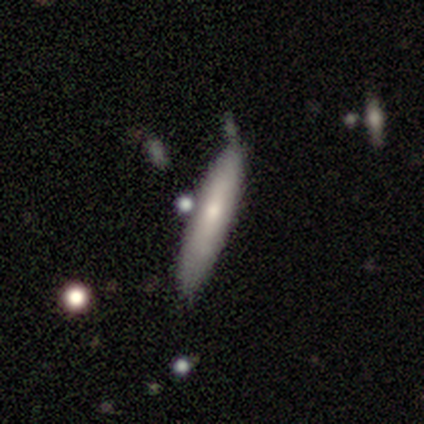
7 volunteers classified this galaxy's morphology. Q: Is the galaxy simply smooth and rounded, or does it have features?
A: smooth — 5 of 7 (71%).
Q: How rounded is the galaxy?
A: cigar-shaped — 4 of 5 (80%).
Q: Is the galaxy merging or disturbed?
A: none — 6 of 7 (86%).